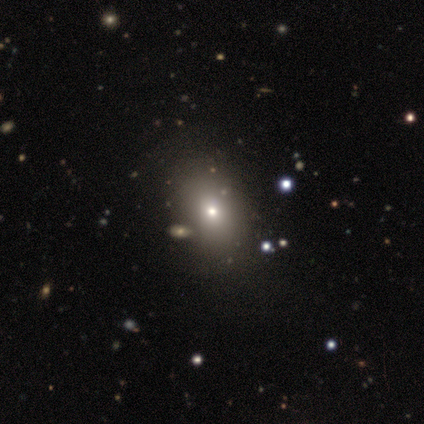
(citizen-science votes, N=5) A smooth galaxy with no disk features (40%, tied with star or artifact) that is round (50%, tied with in between). Merging: none (67%).